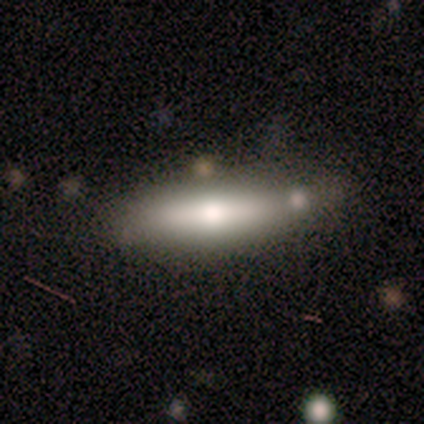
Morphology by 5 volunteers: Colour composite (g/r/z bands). It shows a smooth galaxy with no disk features (80%) that is cigar-shaped (75%). Merging: none (80%).